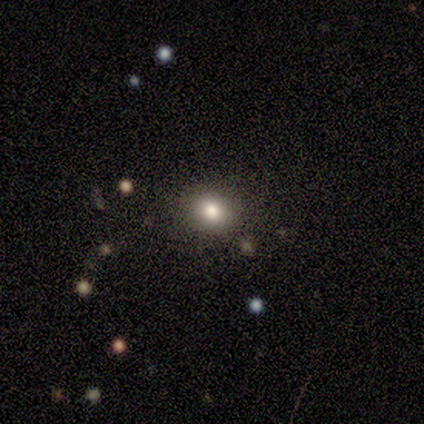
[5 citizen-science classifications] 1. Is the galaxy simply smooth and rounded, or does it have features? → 60% star or artifact, 40% smooth, 0% featured or disk.